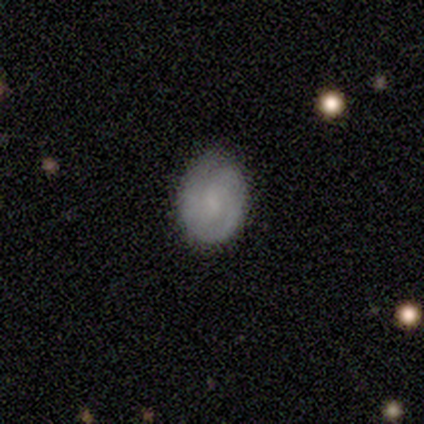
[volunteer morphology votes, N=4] A smooth galaxy with no disk features (50%, tied with featured or disk) that is in between round and cigar-shaped (100%).

Vote fractions:
- Smooth or featured? smooth: 50% (tied) / featured or disk: 50% (tied) / star or artifact: 0%
- How rounded? in between: 100% / round: 0% / cigar-shaped: 0%
- Merging? none: 100% / minor disturbance: 0% / major disturbance: 0% / merger: 0%